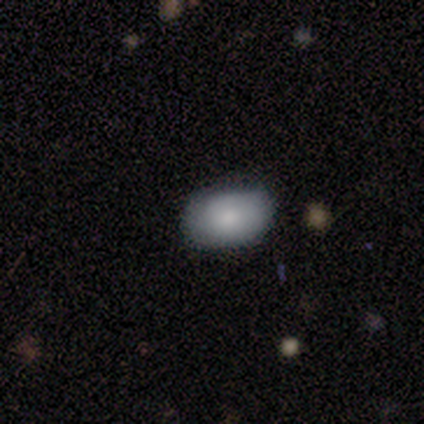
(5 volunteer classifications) smooth 100%, featured or disk 0%, star or artifact 0%. Down the decision tree: how rounded — in between (100%); merging — none (60%).